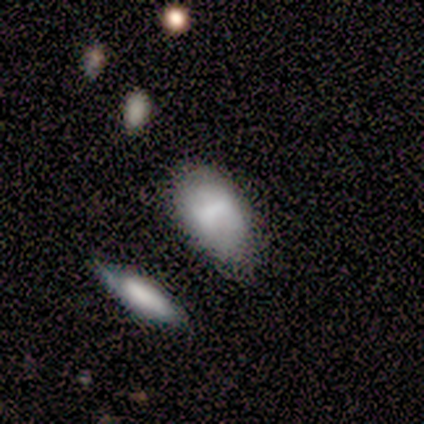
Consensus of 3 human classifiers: Smooth or featured? 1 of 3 (33%, tied with featured or disk and star or artifact) said smooth. How rounded? 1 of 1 (100%) said in between. Merging? 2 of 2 (100%) said none.